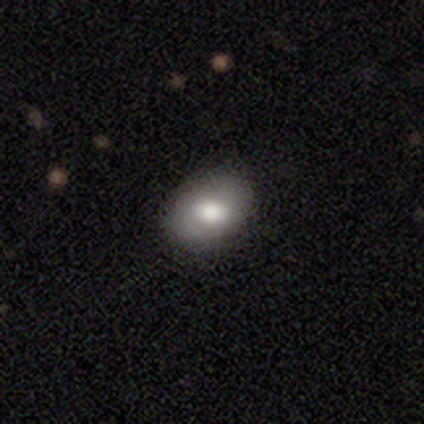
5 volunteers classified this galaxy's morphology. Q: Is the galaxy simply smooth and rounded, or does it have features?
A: smooth — 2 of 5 (40%, tied with featured or disk).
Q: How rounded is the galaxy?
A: in between — 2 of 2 (100%).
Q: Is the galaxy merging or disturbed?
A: none — 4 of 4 (100%).